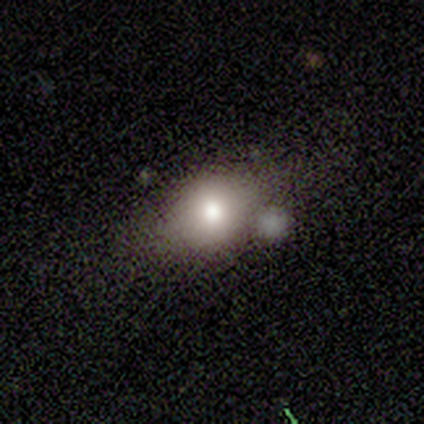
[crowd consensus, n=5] Overall: smooth (60%; star or artifact 40%). How rounded: round (67%; in between 33%). Merging: none (33%, tied with minor disturbance and merger).